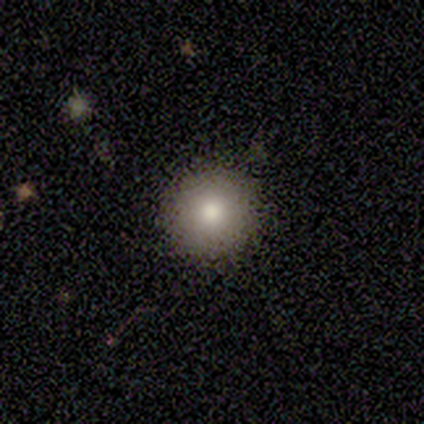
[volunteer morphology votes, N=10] A smooth galaxy with no disk features (80%) that is round (100%).

Vote fractions:
- Smooth or featured? smooth: 80% / featured or disk: 20% / star or artifact: 0%
- How rounded? round: 100% / in between: 0% / cigar-shaped: 0%
- Merging? none: 100% / minor disturbance: 0% / major disturbance: 0% / merger: 0%